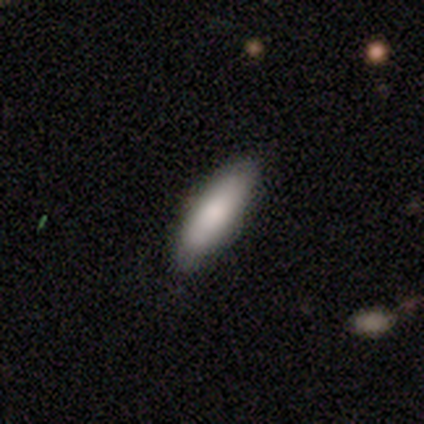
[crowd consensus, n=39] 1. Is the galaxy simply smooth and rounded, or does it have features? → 90% smooth, 8% featured or disk, 3% star or artifact.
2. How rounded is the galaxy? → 51% in between, 49% cigar-shaped, 0% round.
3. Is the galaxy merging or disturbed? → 82% none, 8% major disturbance, 5% minor disturbance, 5% merger.